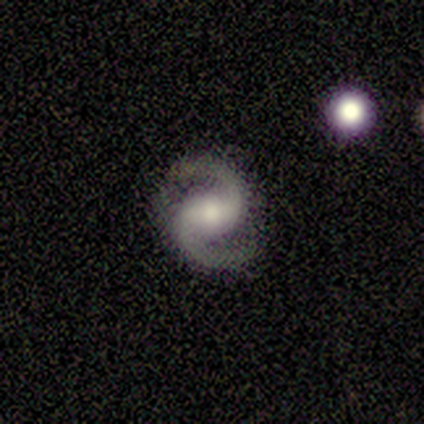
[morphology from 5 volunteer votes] Volunteers were most divided on "bar" (2-way tie): weak: 50%, no: 50%, strong: 0%. More confident: edge-on disk — no (100%); spiral arms — yes (100%); spiral arm count — 2 (100%); merging — none (100%); smooth or featured — featured or disk (80%); spiral winding — medium (50%); bulge size — small (50%).